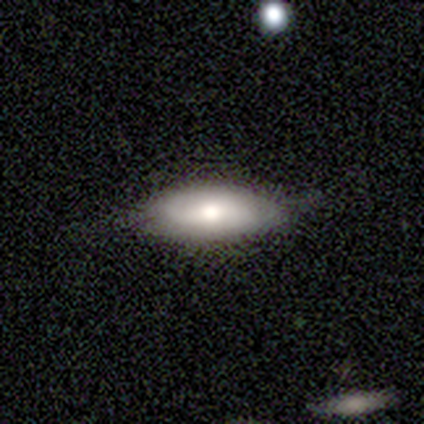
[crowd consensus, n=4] Smooth or featured?
  - smooth: 75% *
  - featured or disk: 25%
  - star or artifact: 0%
How rounded?
  - in between: 67% *
  - cigar-shaped: 33%
  - round: 0%
Merging?
  - none: 75% *
  - minor disturbance: 25%
  - major disturbance: 0%
  - merger: 0%